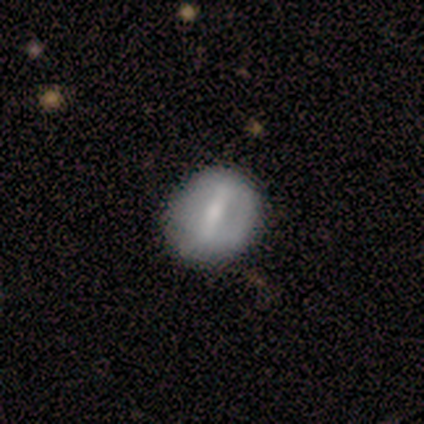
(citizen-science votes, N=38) A featured or disk galaxy (68%) with a strong bar (62%), no spiral arms (79%) and a moderate central bulge (50%).

Vote fractions:
- Smooth or featured? featured or disk: 68% / smooth: 26% / star or artifact: 5%
- Edge-on disk? no: 92% / yes: 8%
- Bar? strong: 62% / weak: 38% / no: 0%
- Spiral arms? no: 79% / yes: 21%
- Bulge size? moderate: 50% / small: 38% / none: 12% / dominant: 0% / large: 0%
- Merging? none: 53% / minor disturbance: 8% / major disturbance: 6% / merger: 0%